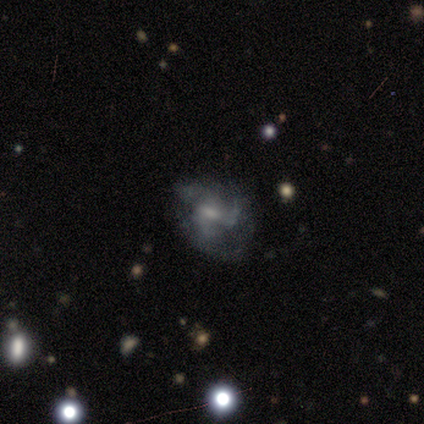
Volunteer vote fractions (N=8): Smooth or featured? featured or disk (88%)
Edge-on disk? no (100%)
Bar? no (57%)
Spiral arms? yes (57%)
Spiral winding? loose (50%)
Spiral arm count? 1 (50%)
Bulge size? small (71%)
Merging? major disturbance (43%)